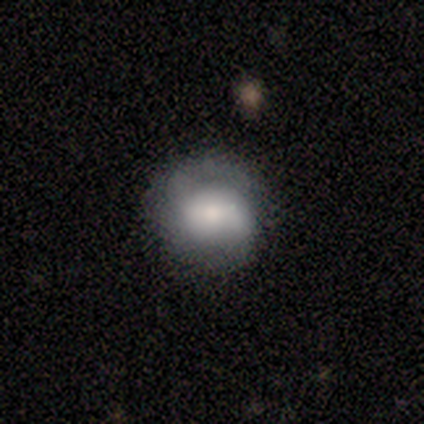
Smooth or featured? featured or disk (75%)
Edge-on disk? no (100%)
Bar? no (67%)
Spiral arms? yes (100%)
Spiral winding? tight (67%)
Spiral arm count? can't tell (67%)
Bulge size? moderate (67%)
Merging? none (75%)